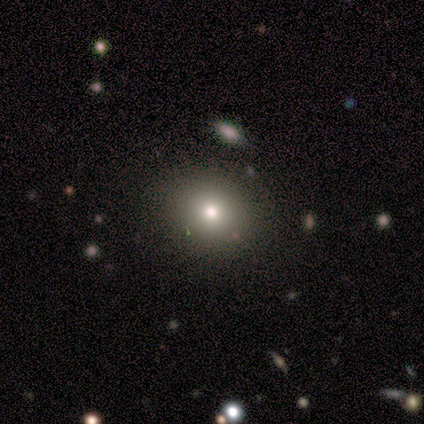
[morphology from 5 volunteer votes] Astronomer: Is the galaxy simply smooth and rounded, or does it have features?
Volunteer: smooth — 40%, tied with featured or disk at 40%.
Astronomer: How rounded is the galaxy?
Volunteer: round — 100%.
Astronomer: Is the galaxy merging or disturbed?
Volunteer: none — 100%.